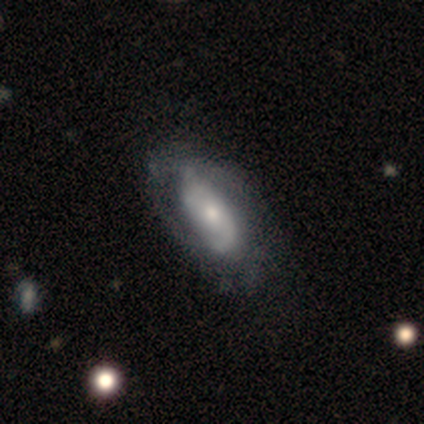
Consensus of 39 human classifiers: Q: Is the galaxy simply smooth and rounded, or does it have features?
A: featured or disk — 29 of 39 (74%).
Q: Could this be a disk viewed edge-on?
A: no — 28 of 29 (97%).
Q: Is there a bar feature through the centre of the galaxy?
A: no — 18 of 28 (64%).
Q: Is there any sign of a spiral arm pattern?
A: yes — 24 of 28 (86%).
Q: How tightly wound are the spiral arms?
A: tight — 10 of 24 (42%).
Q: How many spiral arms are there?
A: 2 — 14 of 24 (58%).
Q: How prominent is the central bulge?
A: moderate — 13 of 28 (46%).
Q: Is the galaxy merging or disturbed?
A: none — 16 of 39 (41%).